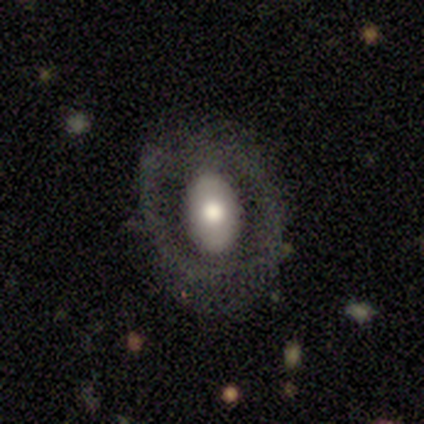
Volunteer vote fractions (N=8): This appears to be a smooth galaxy with no disk features (62%) that is in between round and cigar-shaped (80%). Merging: minor disturbance (38%, tied with major disturbance).